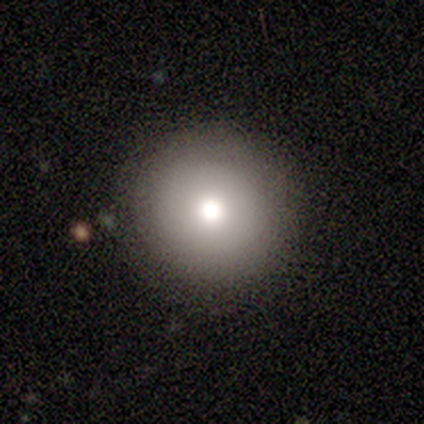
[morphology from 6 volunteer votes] Smooth or featured: smooth — 83% (star or artifact — 17%)
How rounded: round — 80% (in between — 20%)
Merging: none — 100%